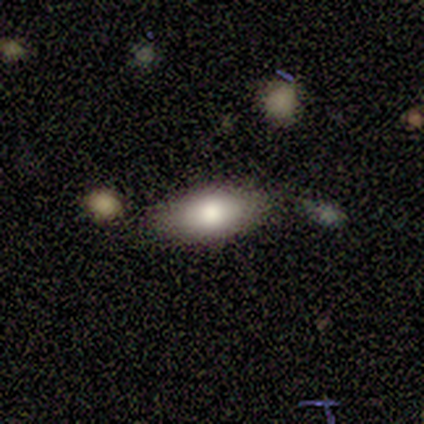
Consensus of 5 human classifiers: Q: Smooth or featured?
A: smooth (100%)
Q: How rounded?
A: in between (100%)
Q: Merging?
A: none (40%); tied with: minor disturbance (40%)